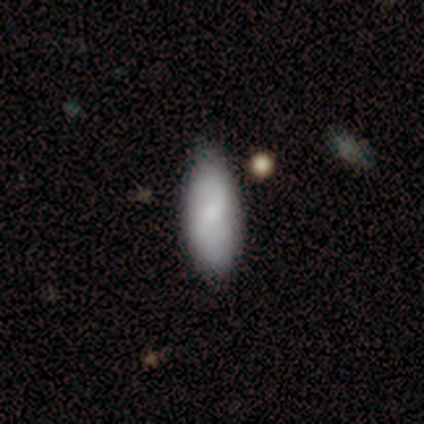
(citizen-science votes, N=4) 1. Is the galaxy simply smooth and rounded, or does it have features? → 75% smooth, 25% featured or disk, 0% star or artifact.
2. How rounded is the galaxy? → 100% in between, 0% round, 0% cigar-shaped.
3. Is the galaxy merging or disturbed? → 50% none (tied), 50% minor disturbance (tied), 0% major disturbance, 0% merger.